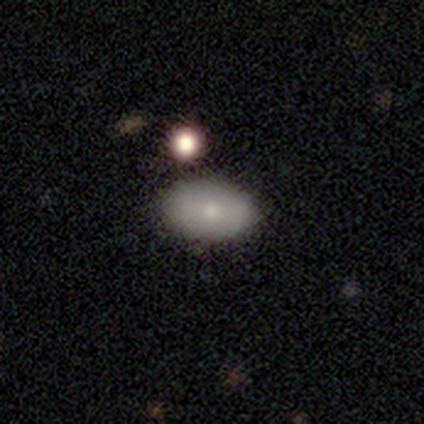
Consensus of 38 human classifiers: smooth 66%, featured or disk 29%, star or artifact 5%. Down the decision tree: how rounded — in between (96%); merging — none (83%).